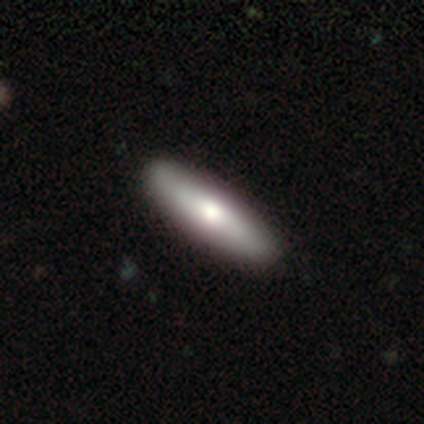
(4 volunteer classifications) A smooth galaxy with no disk features (75%) that is cigar-shaped (67%). Merging: none (100%).